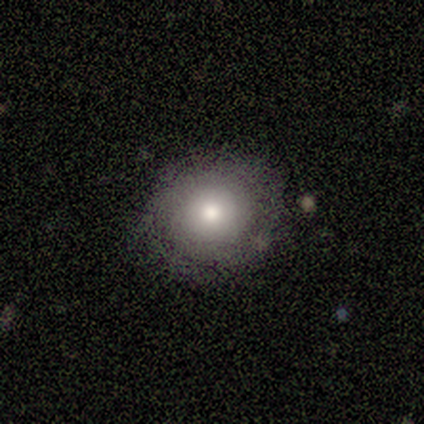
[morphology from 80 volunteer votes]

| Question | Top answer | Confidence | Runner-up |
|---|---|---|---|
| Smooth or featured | smooth | 71% | featured or disk (22%) |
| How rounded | round | 89% | in between (9%) |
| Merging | none | 77% | minor disturbance (15%) |